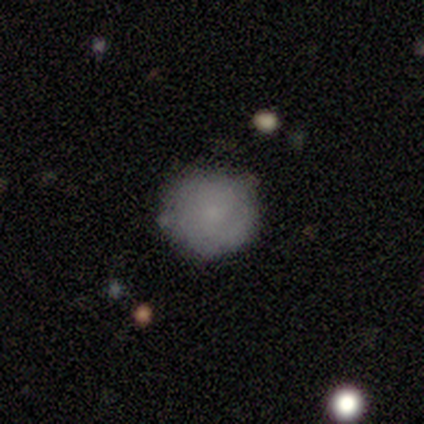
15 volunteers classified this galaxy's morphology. This is likely a smooth galaxy (73%). How rounded: clearly round (82%). Merging: clearly none (86%).